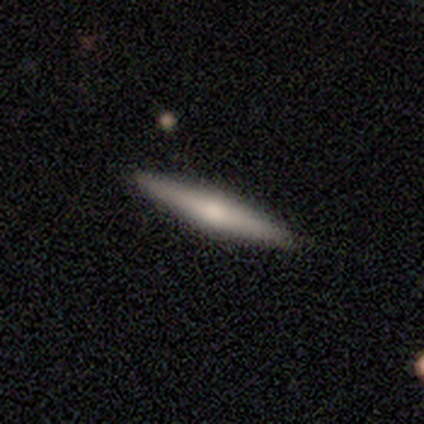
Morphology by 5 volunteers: A smooth galaxy with no disk features (80%) that is cigar-shaped (100%).

Vote fractions:
- Smooth or featured? smooth: 80% / featured or disk: 20% / star or artifact: 0%
- How rounded? cigar-shaped: 100% / round: 0% / in between: 0%
- Merging? none: 100% / minor disturbance: 0% / major disturbance: 0% / merger: 0%